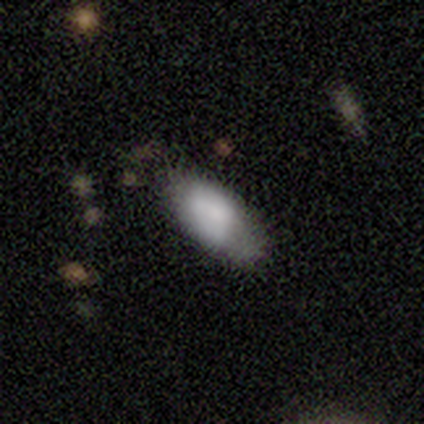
Smooth or featured? 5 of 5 (100%) said smooth. How rounded? 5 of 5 (100%) said in between. Merging? 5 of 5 (100%) said none.